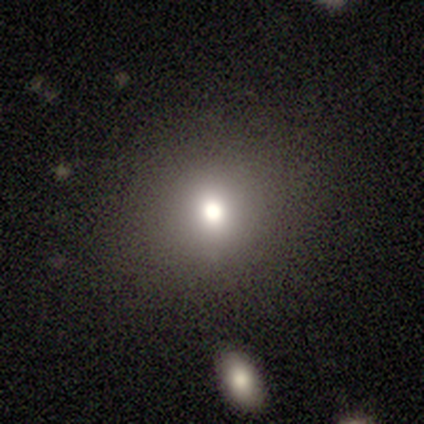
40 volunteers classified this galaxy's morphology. Smooth or featured: smooth — 62% (star or artifact — 20%)
How rounded: round — 96% (in between — 4%)
Merging: none — 91% (minor disturbance — 6%)